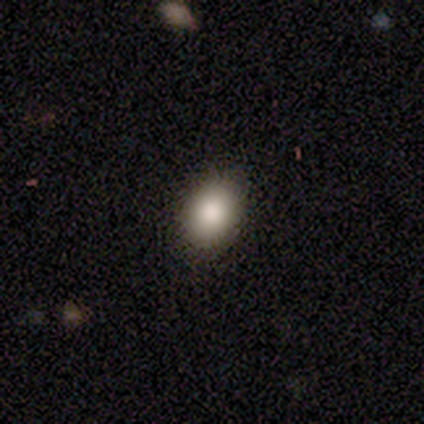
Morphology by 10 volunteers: This is clearly a smooth galaxy (100%). How rounded: clearly in between (90%). Merging: clearly none (80%).